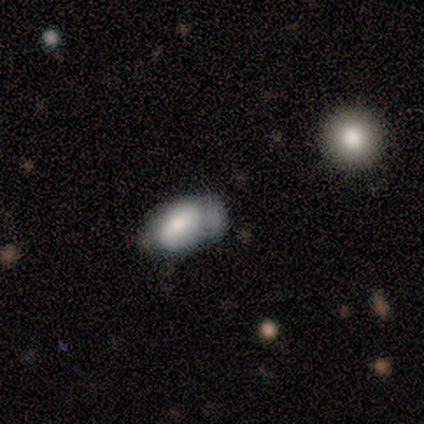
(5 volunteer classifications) Smooth or featured: smooth — 80% (featured or disk — 20%)
How rounded: in between — 75% (round — 25%)
Merging: major disturbance — 60% (none — 20%)